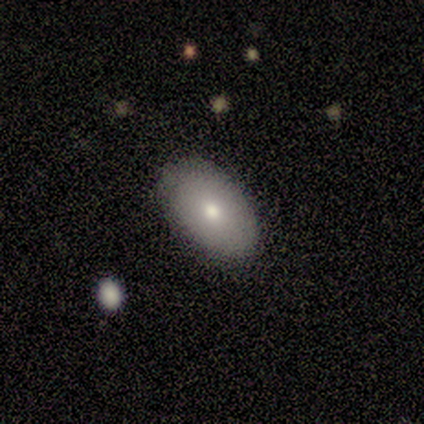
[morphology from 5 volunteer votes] This is clearly a smooth galaxy (80%). How rounded: clearly in between (100%). Merging: clearly none (80%).